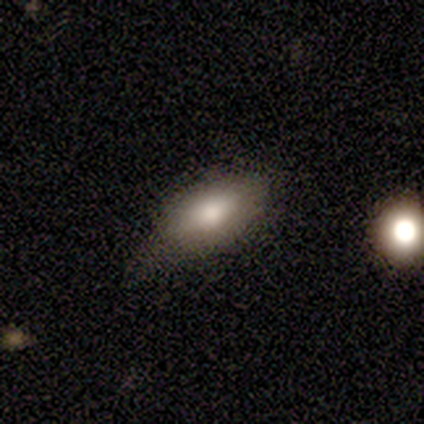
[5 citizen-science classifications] Morphology: type=smooth (100%); roundness=in between (100%); merging=minor disturbance (80%).